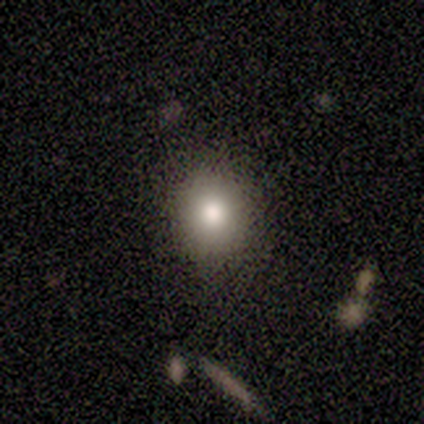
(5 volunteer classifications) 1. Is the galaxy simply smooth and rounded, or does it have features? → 80% smooth, 20% star or artifact, 0% featured or disk.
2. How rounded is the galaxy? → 75% round, 25% in between, 0% cigar-shaped.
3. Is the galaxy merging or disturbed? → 75% none, 25% minor disturbance, 0% major disturbance, 0% merger.